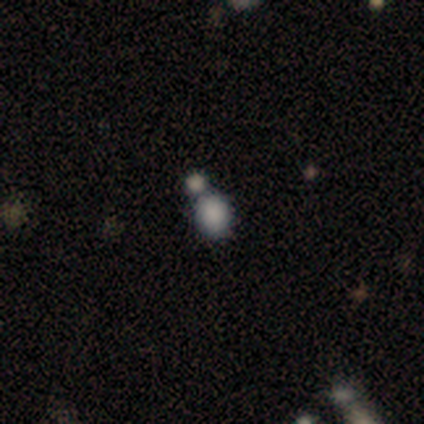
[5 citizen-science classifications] Q: Smooth or featured?
A: smooth (40%); tied with: star or artifact (40%)
Q: How rounded?
A: round (50%); tied with: in between (50%)
Q: Merging?
A: none (67%); runner-up: merger (33%)